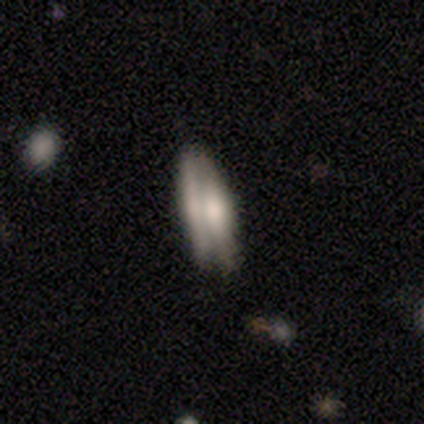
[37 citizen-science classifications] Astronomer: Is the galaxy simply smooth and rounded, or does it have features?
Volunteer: smooth — 49%, tied with featured or disk at 49%.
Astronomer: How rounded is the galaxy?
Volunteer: in between — 67%.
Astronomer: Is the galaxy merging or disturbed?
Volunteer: none — 42% (runner-up: minor disturbance, 31%).